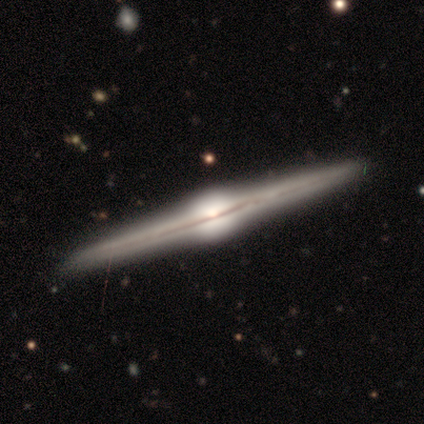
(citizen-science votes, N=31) This appears to be a featured or disk galaxy (94%) viewed edge-on (100%) with a rounded central bulge (100%). Merging: none (87%).